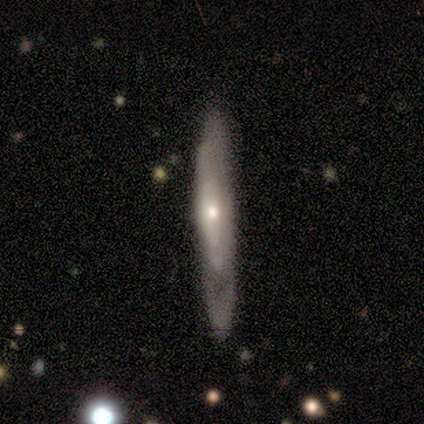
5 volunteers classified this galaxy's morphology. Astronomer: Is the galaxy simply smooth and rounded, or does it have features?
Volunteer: smooth — 60% (runner-up: featured or disk, 40%).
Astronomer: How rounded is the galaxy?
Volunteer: cigar-shaped — 100%.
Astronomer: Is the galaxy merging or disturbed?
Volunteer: none — 60% (runner-up: minor disturbance, 40%).